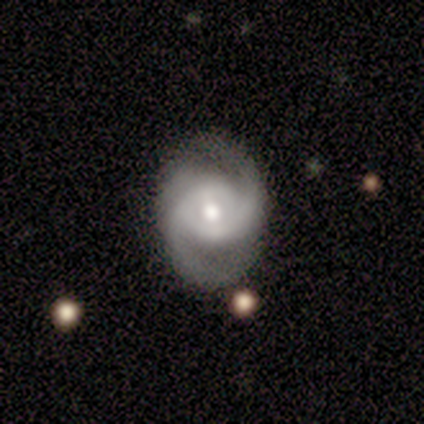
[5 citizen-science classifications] smooth_or_featured: featured or disk (p=1.00)
disk_edge_on: no (p=1.00)
bar: strong (p=0.40) [tied with: no p=0.40]
has_spiral_arms: yes (p=1.00)
spiral_winding: medium (p=0.40) [tied with: loose p=0.40]
spiral_arm_count: 2 (p=1.00)
bulge_size: moderate (p=0.60) [alt: large p=0.20]
merging: none (p=0.60) [alt: minor disturbance p=0.20]